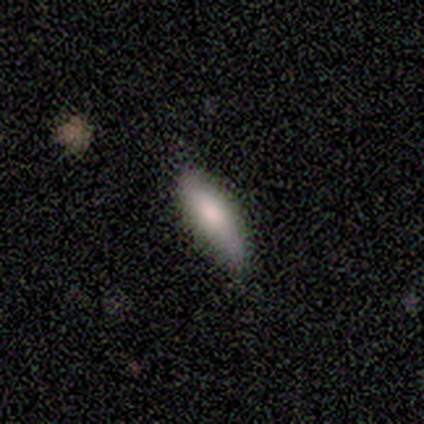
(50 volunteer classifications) smooth-or-featured: smooth: 74% | featured or disk: 22% | star or artifact: 4%
  how-rounded: in between: 54% | cigar-shaped: 43% | round: 3%
  merging: none: 69% | minor disturbance: 29% | major disturbance: 2% | merger: 0%